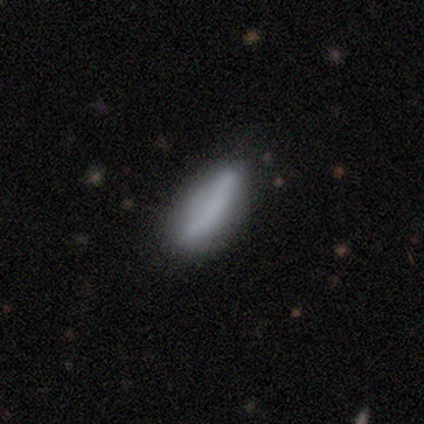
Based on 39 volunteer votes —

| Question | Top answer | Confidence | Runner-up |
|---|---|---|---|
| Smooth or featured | smooth | 69% | featured or disk (23%) |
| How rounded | cigar-shaped | 59% | in between (41%) |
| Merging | none | 36% | minor disturbance (8%) |